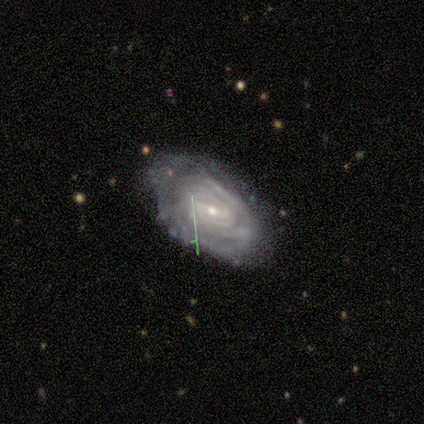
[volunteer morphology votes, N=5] smooth_or_featured: featured or disk (p=0.80) [alt: smooth p=0.20]
disk_edge_on: no (p=1.00)
bar: strong (p=0.50) [alt: weak p=0.25]
has_spiral_arms: yes (p=1.00)
spiral_winding: tight (p=0.75) [alt: medium p=0.25]
spiral_arm_count: can't tell (p=0.75) [alt: 4 p=0.25]
bulge_size: small (p=0.50) [alt: moderate p=0.25]
merging: none (p=1.00)